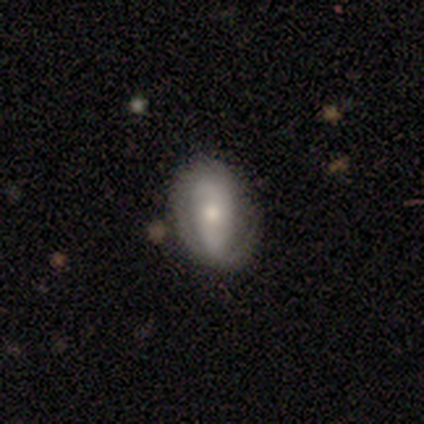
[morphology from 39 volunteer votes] Smooth or featured?
  - featured or disk: 56% *
  - smooth: 38%
  - star or artifact: 5%
Edge-on disk?
  - no: 100% *
  - yes: 0%
Bar?
  - no: 59% *
  - strong: 27%
  - weak: 14%
Spiral arms?
  - yes: 68% *
  - no: 32%
Spiral winding?
  - tight: 67% *
  - loose: 20%
  - medium: 13%
Spiral arm count?
  - 2: 80% *
  - can't tell: 20%
  - 1: 0%
  - 3: 0%
  - 4: 0%
  - more than 4: 0%
Bulge size?
  - moderate: 50% *
  - small: 45%
  - large: 5%
  - dominant: 0%
  - none: 0%
Merging?
  - none: 68% *
  - minor disturbance: 27%
  - major disturbance: 5%
  - merger: 0%